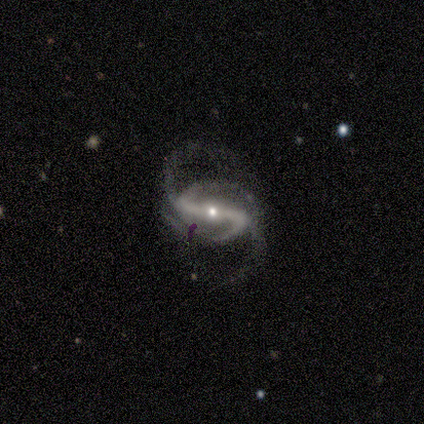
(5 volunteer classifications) Smooth or featured? 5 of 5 (100%) said featured or disk. Edge-on disk? 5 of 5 (100%) said no. Bar? 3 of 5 (60%) said strong. Spiral arms? 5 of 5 (100%) said yes. Spiral winding? 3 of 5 (60%) said loose. Spiral arm count? 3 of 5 (60%) said 4. Bulge size? 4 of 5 (80%) said small. Merging? 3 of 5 (60%) said none.